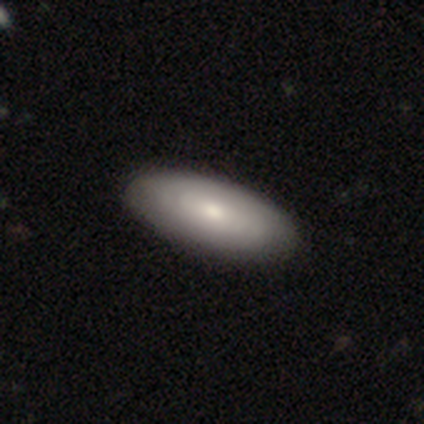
Smooth or featured?
  - smooth: 51% *
  - featured or disk: 41%
  - star or artifact: 8%
How rounded?
  - in between: 85% *
  - cigar-shaped: 10%
  - round: 5%
Merging?
  - none: 64% *
  - minor disturbance: 6%
  - major disturbance: 0%
  - merger: 0%